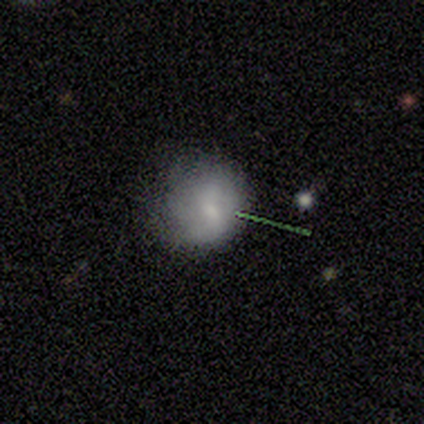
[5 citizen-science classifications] Morphology: type=smooth (60%); roundness=round (67%); merging=minor disturbance (50%).